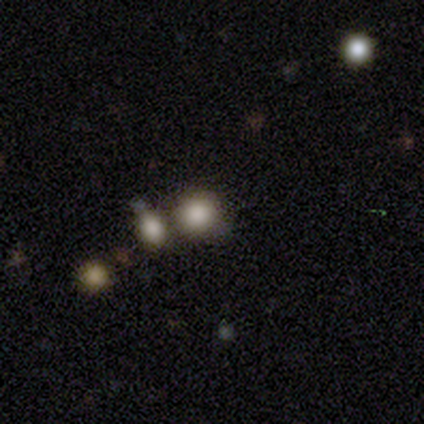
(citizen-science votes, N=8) Q: Smooth or featured?
A: smooth (50%); runner-up: star or artifact (38%)
Q: How rounded?
A: round (100%)
Q: Merging?
A: none (60%); runner-up: merger (40%)